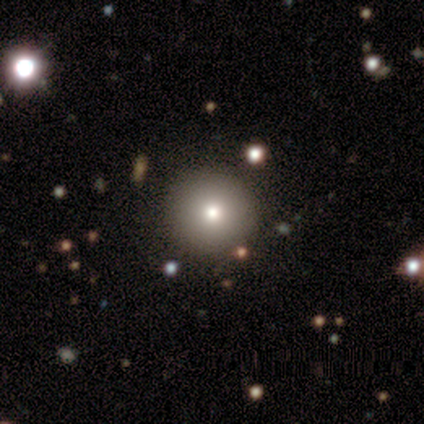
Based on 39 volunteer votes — smooth_or_featured: smooth (p=0.85) [alt: featured or disk p=0.08]
how_rounded: round (p=0.94) [alt: in between p=0.06]
merging: none (p=0.97) [alt: major disturbance p=0.03]